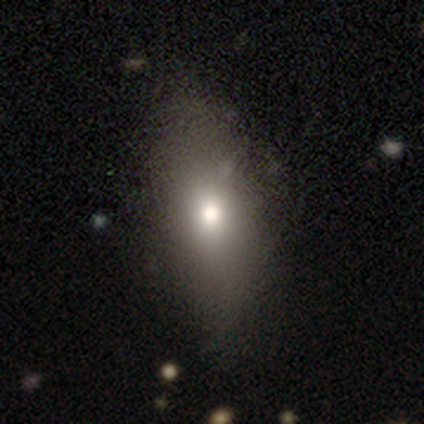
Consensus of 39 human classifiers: A smooth galaxy with no disk features (85%) that is in between round and cigar-shaped (76%).

Vote fractions:
- Smooth or featured? smooth: 85% / featured or disk: 10% / star or artifact: 5%
- How rounded? in between: 76% / cigar-shaped: 18% / round: 6%
- Merging? none: 65% / minor disturbance: 30% / major disturbance: 5% / merger: 0%